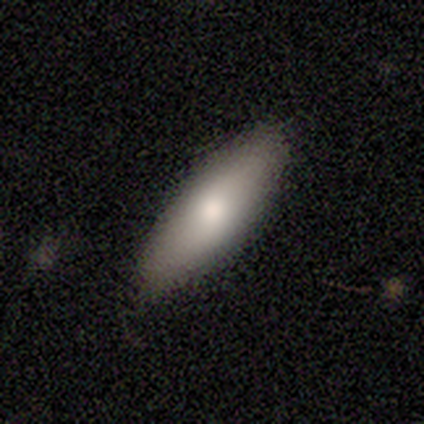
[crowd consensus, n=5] Smooth or featured?
  - smooth: 80% *
  - featured or disk: 20%
  - star or artifact: 0%
How rounded?
  - in between: 100% *
  - round: 0%
  - cigar-shaped: 0%
Merging?
  - none: 100% *
  - minor disturbance: 0%
  - major disturbance: 0%
  - merger: 0%